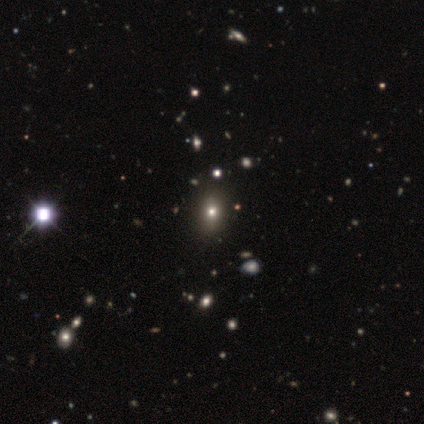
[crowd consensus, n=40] A smooth galaxy with no disk features (57%) that is in between round and cigar-shaped (57%).

Vote fractions:
- Smooth or featured? smooth: 57% / star or artifact: 30% / featured or disk: 12%
- How rounded? in between: 57% / round: 43% / cigar-shaped: 0%
- Merging? none: 68% / merger: 7% / minor disturbance: 4% / major disturbance: 0%